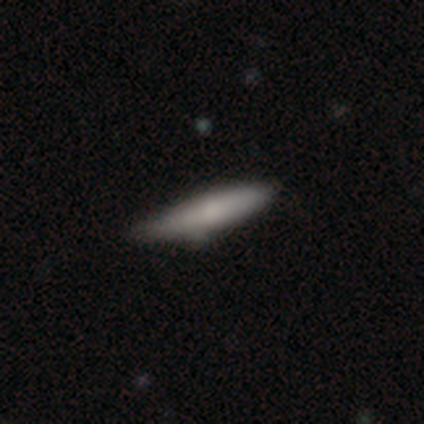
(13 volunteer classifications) Q: Smooth or featured?
A: smooth (77%); runner-up: featured or disk (15%)
Q: How rounded?
A: cigar-shaped (80%); runner-up: round (10%)
Q: Merging?
A: none (50%); runner-up: minor disturbance (42%)